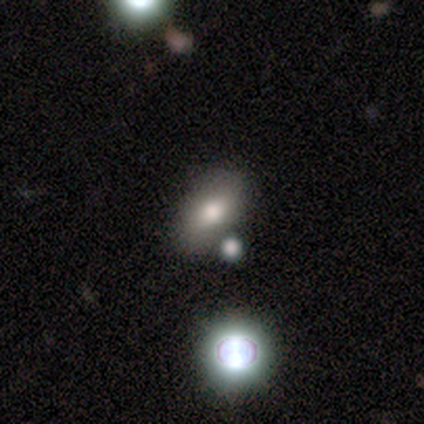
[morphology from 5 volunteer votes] A smooth galaxy with no disk features (60%) that is in between round and cigar-shaped (100%). Merging: none (33%, tied with major disturbance and merger).